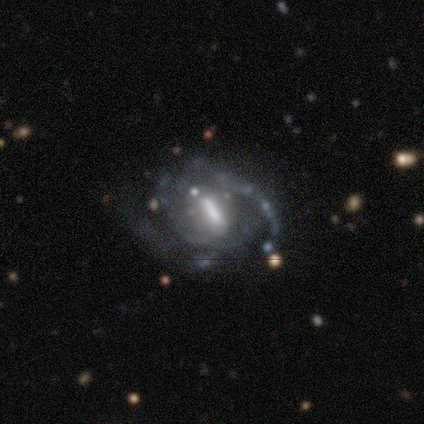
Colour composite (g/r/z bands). It shows a featured or disk galaxy (100%) with a strong bar (50%, tied with weak), 2 (67%) tight (50%, tied with medium) spiral arms (100%) and a moderate central bulge (50%, tied with none). Merging: none (67%).